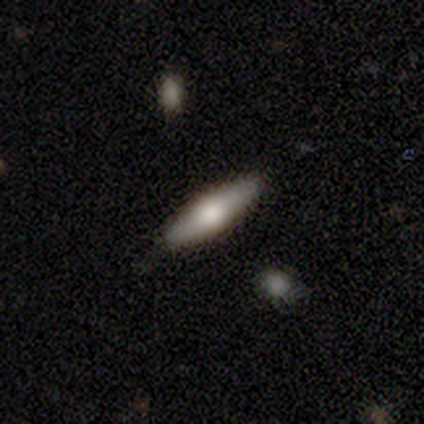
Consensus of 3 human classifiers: smooth-or-featured: smooth: 100% | featured or disk: 0% | star or artifact: 0%
  how-rounded: in between: 67% | cigar-shaped: 33% | round: 0%
  merging: none: 100% | minor disturbance: 0% | major disturbance: 0% | merger: 0%